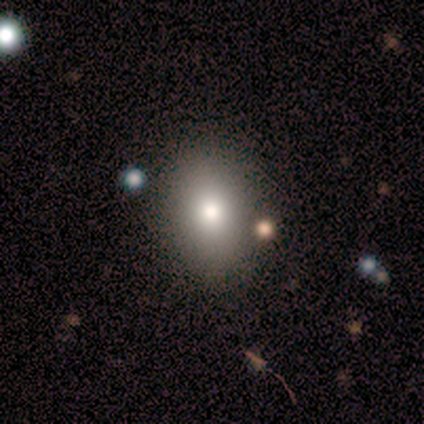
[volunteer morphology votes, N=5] Smooth or featured: smooth — 80% (star or artifact — 20%)
How rounded: in between — 75% (round — 25%)
Merging: none — 100%